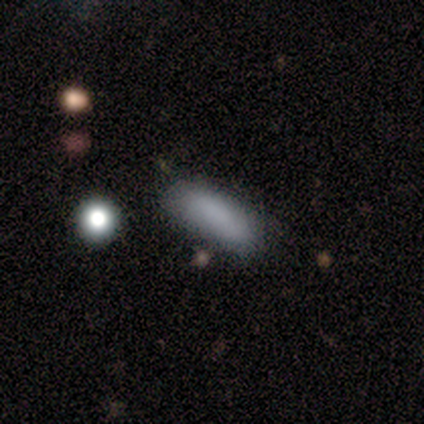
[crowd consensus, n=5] Smooth or featured: smooth — 60% (featured or disk — 20%)
How rounded: in between — 67% (cigar-shaped — 33%)
Merging: none — 100%